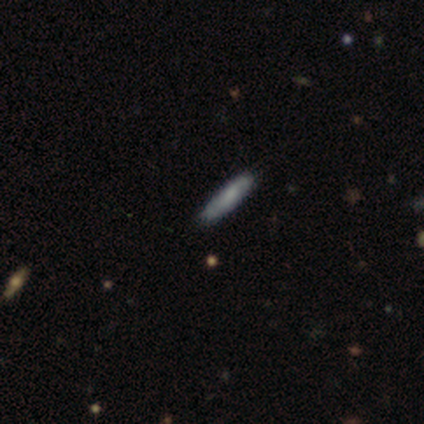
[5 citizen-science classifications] smooth_or_featured: smooth (p=0.60) [alt: featured or disk p=0.40]
how_rounded: cigar-shaped (p=0.67) [alt: in between p=0.33]
merging: none (p=1.00)